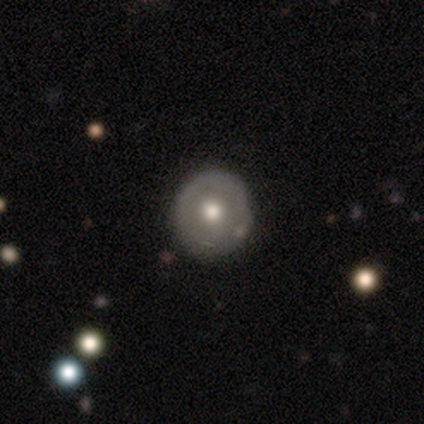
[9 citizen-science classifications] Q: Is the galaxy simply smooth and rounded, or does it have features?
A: smooth — 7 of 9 (78%).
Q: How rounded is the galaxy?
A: round — 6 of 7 (86%).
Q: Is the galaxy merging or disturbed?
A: none — 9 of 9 (100%).